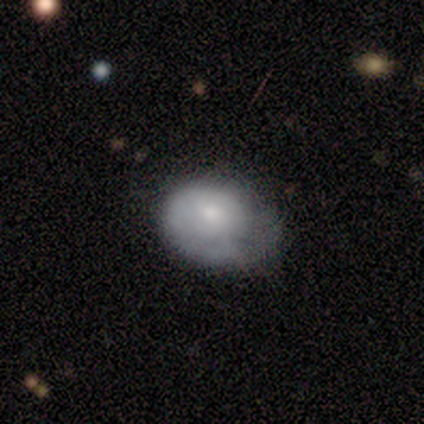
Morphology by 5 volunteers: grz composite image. It shows a smooth galaxy with no disk features (60%) that is in between round and cigar-shaped (67%). Merging: none (60%).